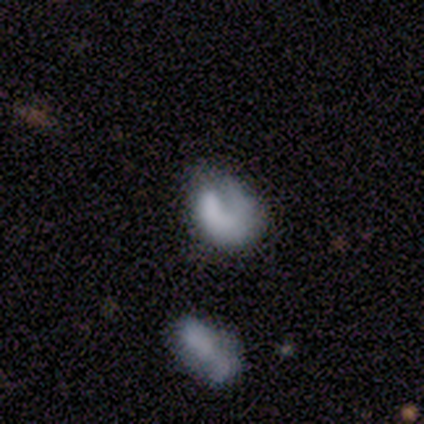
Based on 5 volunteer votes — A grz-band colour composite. It shows a featured or disk galaxy (60%) with no bar (100%), 1 (100%) loose (100%) spiral arms (50%, tied with no) and a dominant central bulge (50%, tied with none). Merging: minor disturbance (40%, tied with merger).